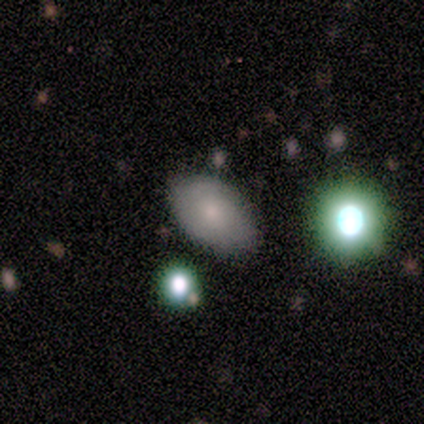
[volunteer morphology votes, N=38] smooth_or_featured: smooth (p=0.63) [alt: featured or disk p=0.24]
how_rounded: in between (p=0.88) [alt: round p=0.08]
merging: none (p=0.76) [alt: minor disturbance p=0.15]